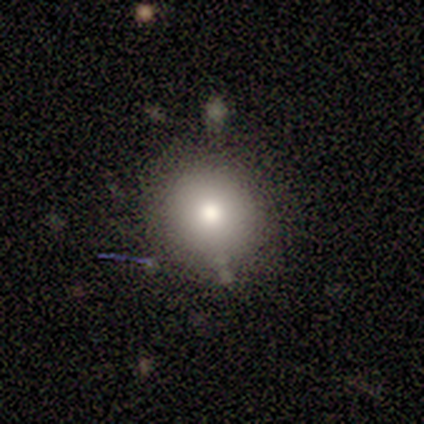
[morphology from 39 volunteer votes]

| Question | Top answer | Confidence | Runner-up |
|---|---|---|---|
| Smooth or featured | smooth | 72% | featured or disk (21%) |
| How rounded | round | 86% | in between (14%) |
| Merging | none | 86% | minor disturbance (8%) |